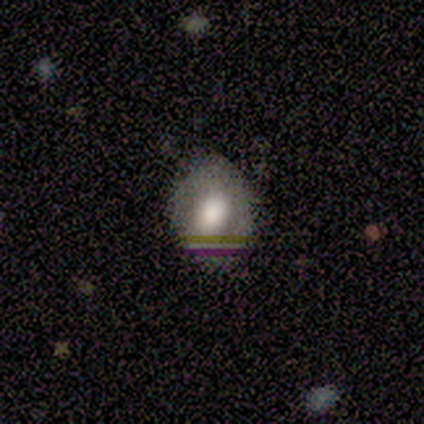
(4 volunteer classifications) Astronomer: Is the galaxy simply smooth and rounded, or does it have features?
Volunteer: featured or disk — 50%.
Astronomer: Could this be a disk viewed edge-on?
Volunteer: no — 100%.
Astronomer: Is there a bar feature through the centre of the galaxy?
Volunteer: strong — 50%, tied with no at 50%.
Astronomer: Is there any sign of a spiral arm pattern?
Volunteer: yes — 50%, tied with no at 50%.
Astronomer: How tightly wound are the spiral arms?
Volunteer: tight — 100%.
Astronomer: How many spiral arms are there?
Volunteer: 2 — 100%.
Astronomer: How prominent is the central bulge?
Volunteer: large — 100%.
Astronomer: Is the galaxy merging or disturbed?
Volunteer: none — 100%.